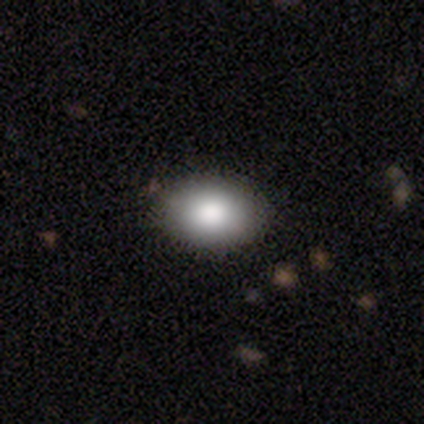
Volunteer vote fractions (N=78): Overall: smooth (85%). How rounded: in between (95%). Merging: none (92%).